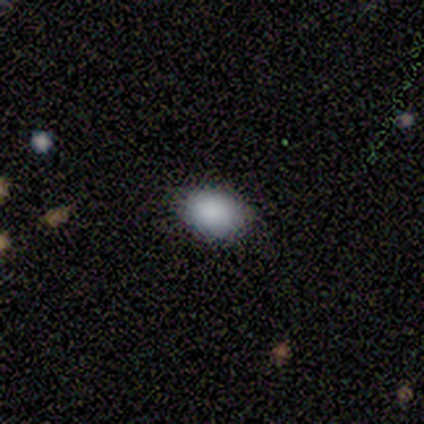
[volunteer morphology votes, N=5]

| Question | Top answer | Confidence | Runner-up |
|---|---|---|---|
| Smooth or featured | smooth | 100% | — |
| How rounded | in between | 80% | round (20%) |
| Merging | none | 100% | — |